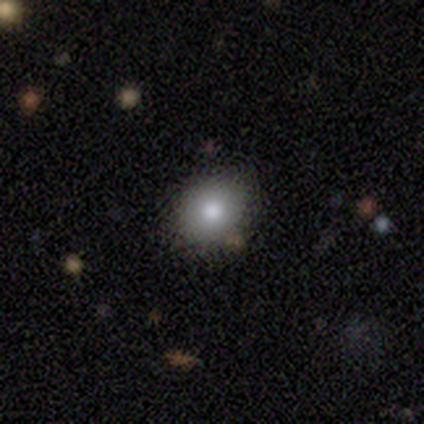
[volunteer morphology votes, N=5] Overall: smooth (60%; featured or disk 20%). How rounded: in between (67%; round 33%). Merging: none (100%).